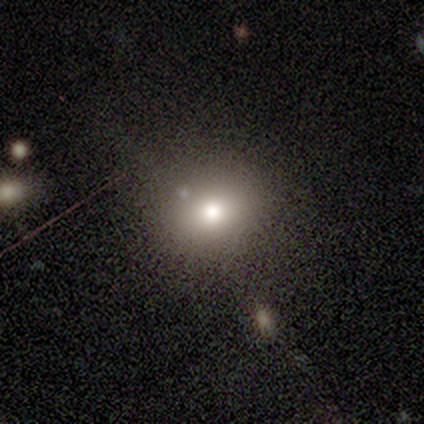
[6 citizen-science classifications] This is marginally a smooth galaxy (33%, tied with featured or disk and star or artifact). How rounded: clearly in between (100%). Merging: clearly none (100%).